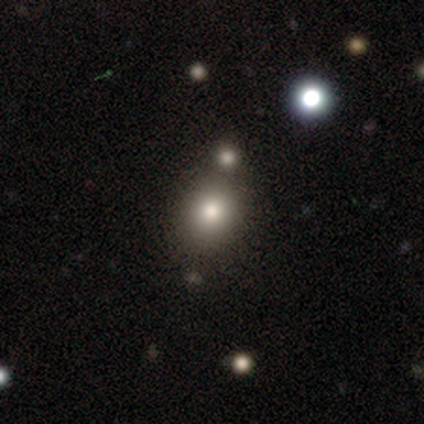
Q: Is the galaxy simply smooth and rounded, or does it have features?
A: smooth — 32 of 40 (80%).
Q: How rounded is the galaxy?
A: round — 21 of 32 (66%).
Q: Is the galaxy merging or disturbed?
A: none — 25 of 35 (71%).